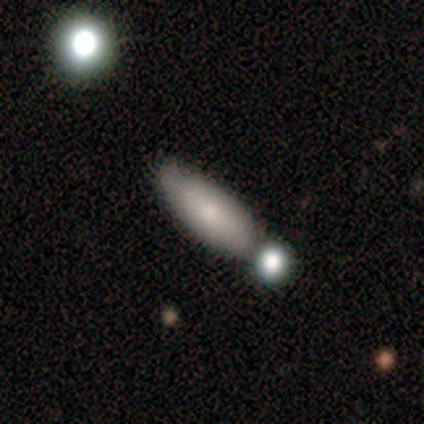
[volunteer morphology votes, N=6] Volunteers were most divided on "merging": none: 60%, merger: 40%, minor disturbance: 0%, major disturbance: 0%. More confident: smooth or featured — smooth (83%); how rounded — cigar-shaped (80%).